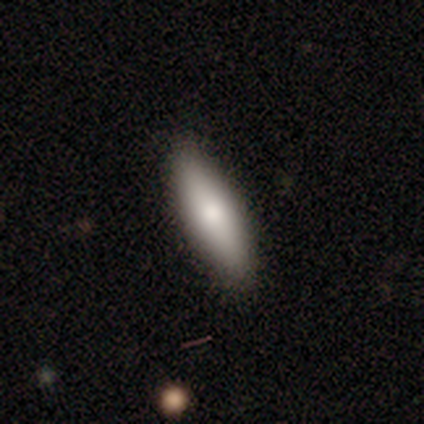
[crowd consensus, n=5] A smooth galaxy with no disk features (80%) that is in between round and cigar-shaped (50%, tied with cigar-shaped).

Vote fractions:
- Smooth or featured? smooth: 80% / featured or disk: 20% / star or artifact: 0%
- How rounded? in between: 50% (tied) / cigar-shaped: 50% (tied) / round: 0%
- Merging? none: 80% / minor disturbance: 20% / major disturbance: 0% / merger: 0%